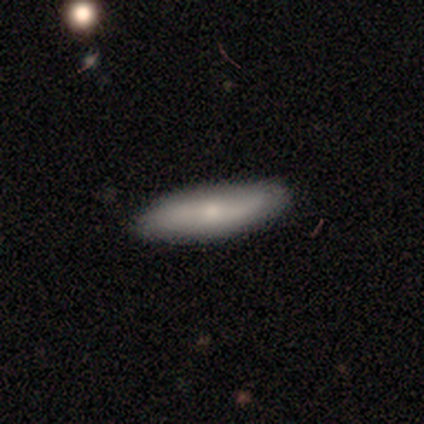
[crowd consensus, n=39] Morphology: type=smooth (54%); roundness=cigar-shaped (67%); merging=none (86%).